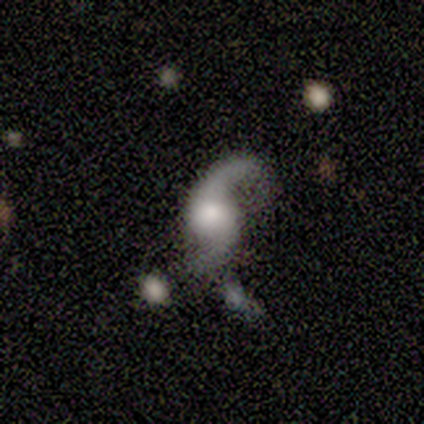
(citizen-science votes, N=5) This is clearly a featured or disk galaxy (100%). It is clearly not viewed edge-on (100%). Bar: clearly no (100%). Spiral arm pattern: clearly yes (100%). Spiral arm count: clearly 2 (100%). Spiral winding: clearly loose (100%). Central bulge: marginally large (40%, tied with moderate). Merging: likely none (60%).